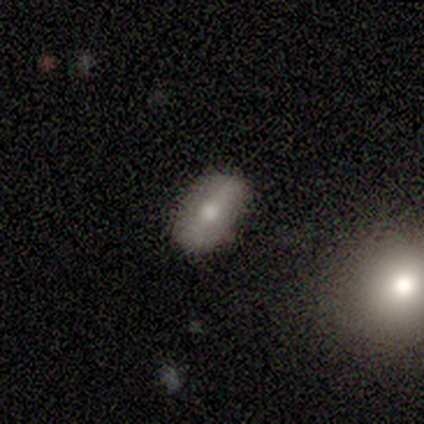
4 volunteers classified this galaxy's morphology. A smooth galaxy with no disk features (50%, tied with featured or disk) that is in between round and cigar-shaped (100%). Merging: none (75%).